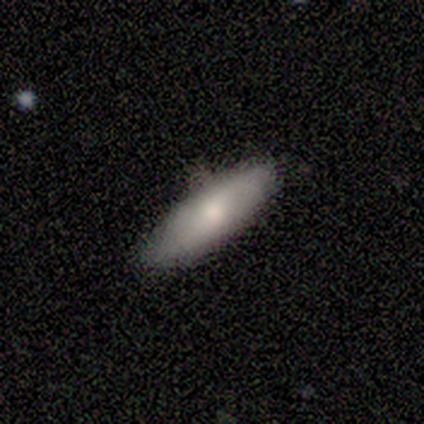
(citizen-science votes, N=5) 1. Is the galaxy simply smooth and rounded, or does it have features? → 80% smooth, 20% featured or disk, 0% star or artifact.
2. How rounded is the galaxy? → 100% in between, 0% round, 0% cigar-shaped.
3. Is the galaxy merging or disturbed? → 60% minor disturbance, 40% none, 0% major disturbance, 0% merger.